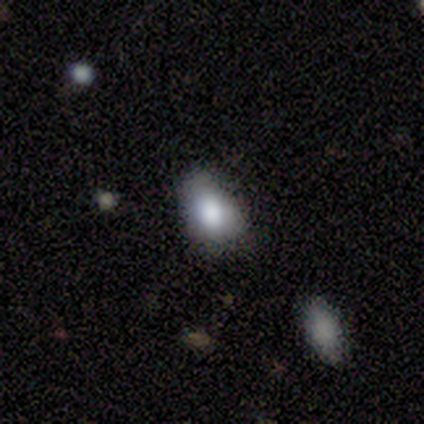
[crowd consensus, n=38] Overall: smooth (74%). How rounded: in between (89%). Merging: none (64%; minor disturbance 33%).